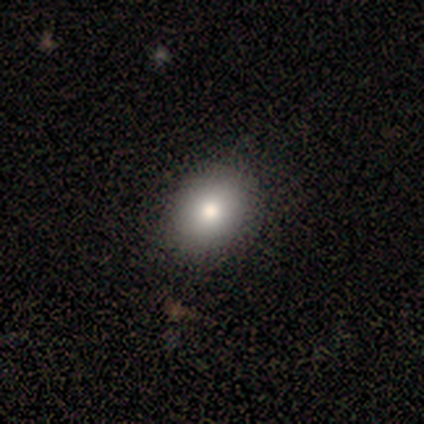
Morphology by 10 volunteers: A smooth galaxy with no disk features (60%) that is round (83%).

Vote fractions:
- Smooth or featured? smooth: 60% / featured or disk: 20% / star or artifact: 20%
- How rounded? round: 83% / in between: 17% / cigar-shaped: 0%
- Merging? none: 100% / minor disturbance: 0% / major disturbance: 0% / merger: 0%